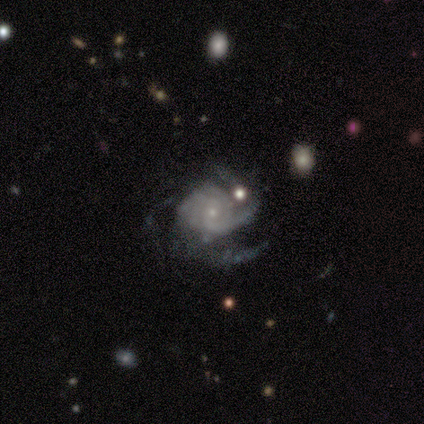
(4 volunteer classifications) This appears to be a featured or disk galaxy (100%) with no bar (100%), tight (100%) spiral arms (100%) and a small central bulge (50%). Merging: none (50%).